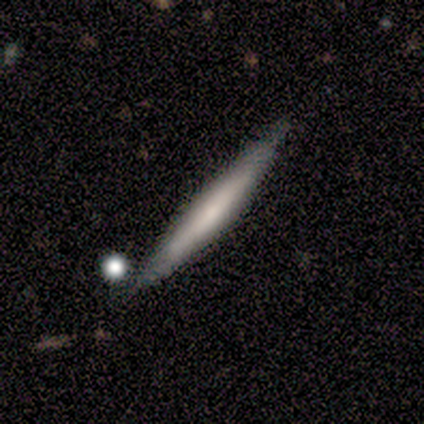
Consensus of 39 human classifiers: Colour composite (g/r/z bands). It shows a smooth galaxy with no disk features (51%) that is cigar-shaped (100%). Merging: none (75%).